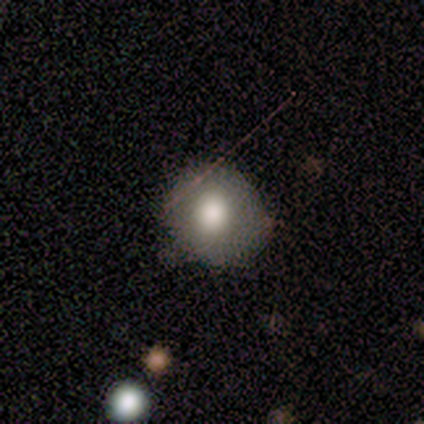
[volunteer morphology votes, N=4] Volunteers were most divided on "how rounded": round: 75%, in between: 25%, cigar-shaped: 0%. More confident: smooth or featured — smooth (100%); merging — none (75%).